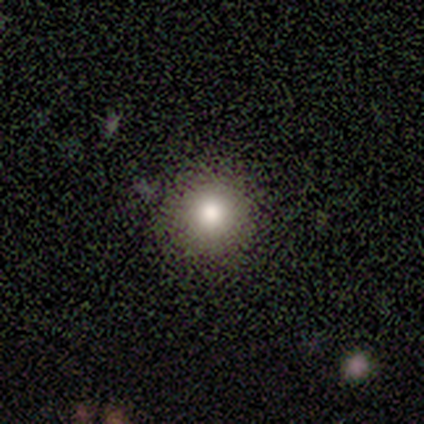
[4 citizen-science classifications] Volunteers were most divided on "smooth or featured": smooth: 75%, featured or disk: 25%, star or artifact: 0%. More confident: how rounded — round (100%); merging — none (100%).